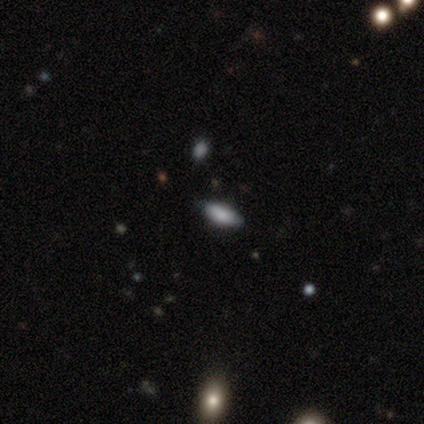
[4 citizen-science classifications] Smooth or featured: smooth — 75% (star or artifact — 25%)
How rounded: cigar-shaped — 67% (in between — 33%)
Merging: none — 100%